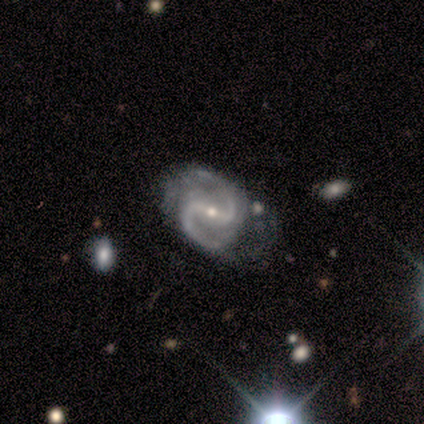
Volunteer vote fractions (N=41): Smooth or featured?
  - featured or disk: 88% *
  - star or artifact: 7%
  - smooth: 5%
Edge-on disk?
  - no: 100% *
  - yes: 0%
Bar?
  - strong: 67% *
  - weak: 28%
  - no: 6%
Spiral arms?
  - yes: 97% *
  - no: 3%
Spiral winding?
  - medium: 80% *
  - loose: 14%
  - tight: 6%
Spiral arm count?
  - 2: 100% *
  - 1: 0%
  - 3: 0%
  - 4: 0%
  - more than 4: 0%
  - can't tell: 0%
Bulge size?
  - small: 72% *
  - moderate: 28%
  - dominant: 0%
  - large: 0%
  - none: 0%
Merging?
  - none: 50% *
  - minor disturbance: 37%
  - merger: 8%
  - major disturbance: 5%